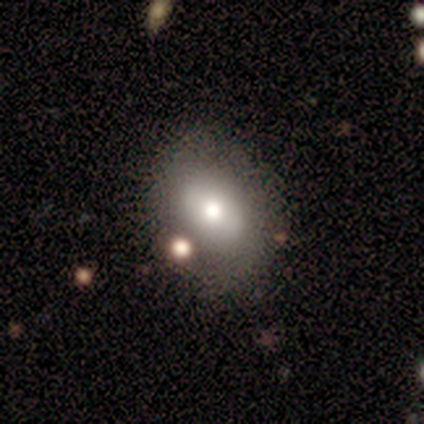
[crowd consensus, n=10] This is clearly a smooth galaxy (80%). How rounded: likely in between (62%). Merging: clearly none (80%).